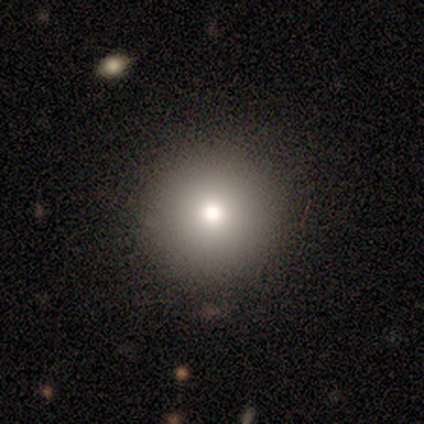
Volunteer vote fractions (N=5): Overall: smooth (80%). How rounded: round (100%). Merging: none (80%).